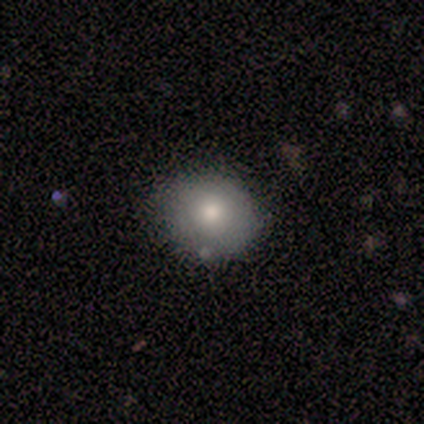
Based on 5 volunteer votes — Smooth or featured?
  - smooth: 60% *
  - featured or disk: 40%
  - star or artifact: 0%
How rounded?
  - round: 100% *
  - in between: 0%
  - cigar-shaped: 0%
Merging?
  - none: 60% *
  - minor disturbance: 40%
  - major disturbance: 0%
  - merger: 0%